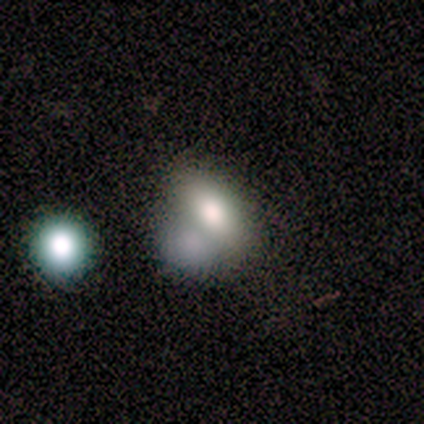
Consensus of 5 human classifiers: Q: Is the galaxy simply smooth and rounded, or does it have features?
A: smooth — 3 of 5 (60%).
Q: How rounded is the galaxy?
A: in between — 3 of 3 (100%).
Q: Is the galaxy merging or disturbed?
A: merger — 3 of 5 (60%).